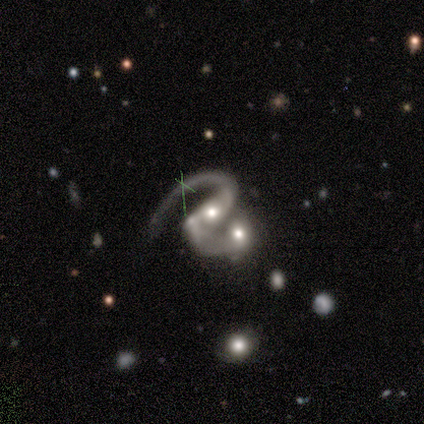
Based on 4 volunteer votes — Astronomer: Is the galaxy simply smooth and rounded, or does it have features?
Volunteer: featured or disk — 50%.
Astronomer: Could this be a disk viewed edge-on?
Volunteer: no — 100%.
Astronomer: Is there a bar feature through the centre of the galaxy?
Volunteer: strong — 100%.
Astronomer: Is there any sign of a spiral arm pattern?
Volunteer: yes — 100%.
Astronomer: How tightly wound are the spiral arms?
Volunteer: medium — 50%, tied with loose at 50%.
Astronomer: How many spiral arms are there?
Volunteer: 1 — 50%, tied with 2 at 50%.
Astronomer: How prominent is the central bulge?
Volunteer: large — 50%, tied with moderate at 50%.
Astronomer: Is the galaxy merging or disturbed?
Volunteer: none — 33%, tied with major disturbance and merger at 33%.